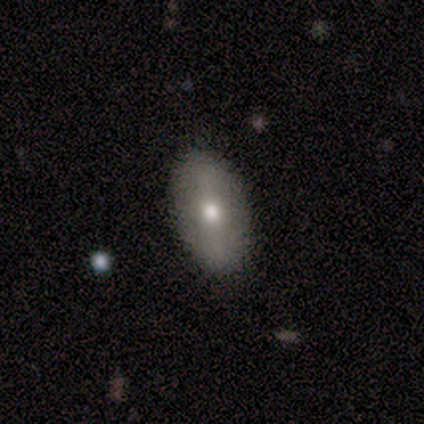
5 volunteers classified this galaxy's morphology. Q: Smooth or featured?
A: smooth (60%); runner-up: featured or disk (20%)
Q: How rounded?
A: in between (100%)
Q: Merging?
A: none (75%); runner-up: minor disturbance (25%)